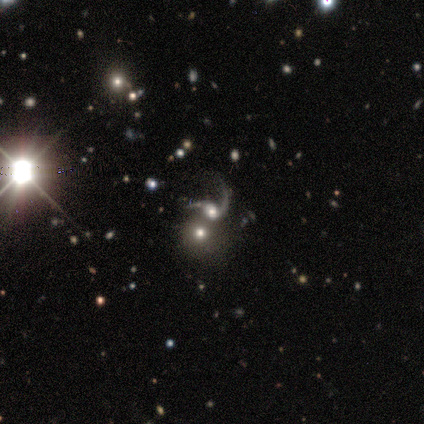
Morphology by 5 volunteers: Overall: featured or disk (80%). Edge-on disk: no (100%). Bar: no (100%). Spiral arms: yes (100%). Spiral arm count: 1 (75%). Spiral winding: loose (100%). Bulge size: moderate (100%). Merging: merger (60%; none 20%).